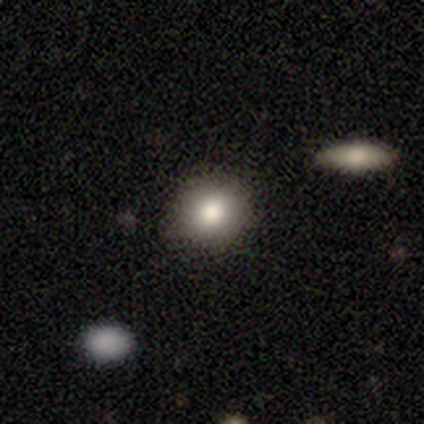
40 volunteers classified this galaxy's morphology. smooth-or-featured: smooth: 80% | star or artifact: 12% | featured or disk: 8%
  how-rounded: round: 88% | in between: 9% | cigar-shaped: 3%
  merging: none: 86% | minor disturbance: 9% | merger: 6% | major disturbance: 0%